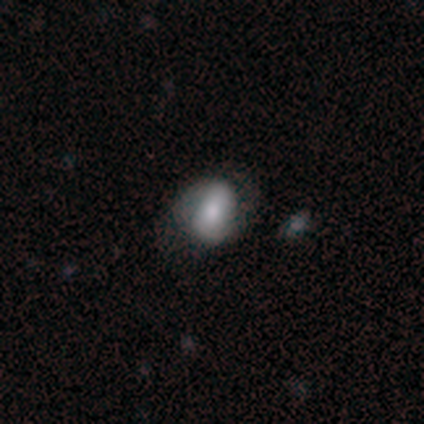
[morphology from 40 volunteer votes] Smooth or featured?
  - smooth: 65% *
  - featured or disk: 28%
  - star or artifact: 8%
How rounded?
  - in between: 65% *
  - round: 35%
  - cigar-shaped: 0%
Merging?
  - none: 54% *
  - minor disturbance: 41%
  - major disturbance: 3%
  - merger: 3%